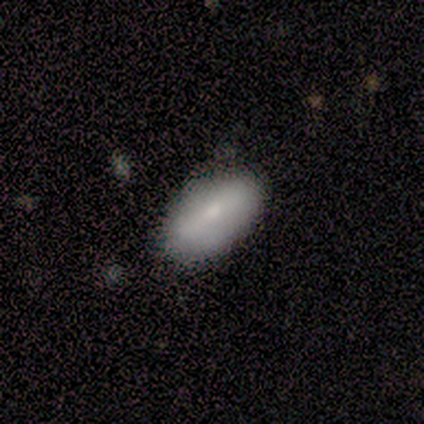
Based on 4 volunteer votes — Morphology: type=smooth (100%); roundness=in between (100%); merging=none (75%).